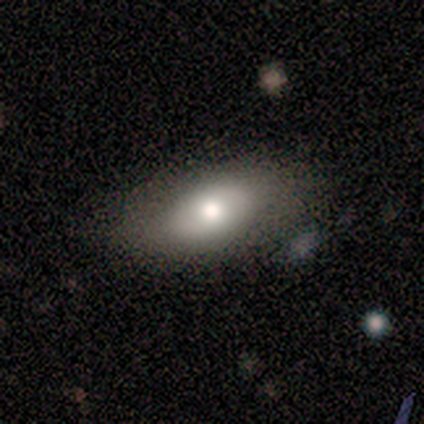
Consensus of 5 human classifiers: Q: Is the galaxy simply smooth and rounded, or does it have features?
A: smooth — 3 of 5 (60%).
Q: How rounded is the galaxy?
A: in between — 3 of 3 (100%).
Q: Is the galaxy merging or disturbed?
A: none — 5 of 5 (100%).